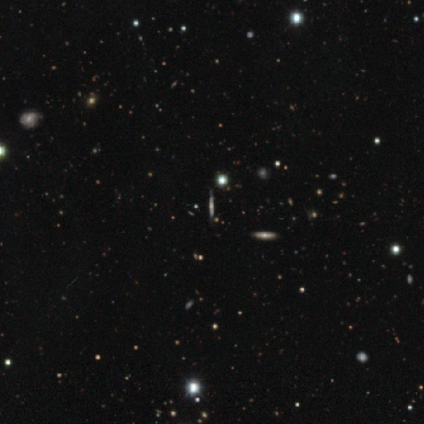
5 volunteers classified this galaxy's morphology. This appears to be a featured or disk galaxy (80%) viewed edge-on (100%) with a rounded central bulge (75%). Merging: none (100%).